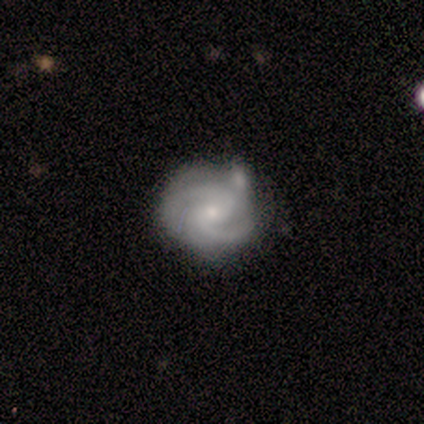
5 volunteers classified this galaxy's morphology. A featured or disk galaxy (80%) with no bar (75%), 2 (50%, tied with 3) medium (75%) spiral arms (100%) and a small central bulge (100%).

Vote fractions:
- Smooth or featured? featured or disk: 80% / smooth: 20% / star or artifact: 0%
- Edge-on disk? no: 100% / yes: 0%
- Bar? no: 75% / weak: 25% / strong: 0%
- Spiral arms? yes: 100% / no: 0%
- Spiral winding? medium: 75% / loose: 25% / tight: 0%
- Spiral arm count? 2: 50% (tied) / 3: 50% (tied) / 1: 0% / 4: 0% / more than 4: 0% / can't tell: 0%
- Bulge size? small: 100% / dominant: 0% / large: 0% / moderate: 0% / none: 0%
- Merging? none: 60% / minor disturbance: 40% / major disturbance: 0% / merger: 0%